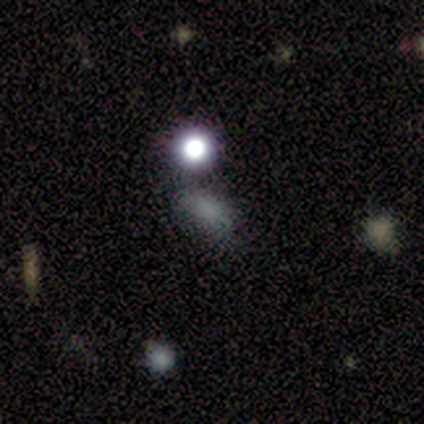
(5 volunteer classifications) Morphology: type=smooth (100%); roundness=in between (60%); merging=minor disturbance (60%).